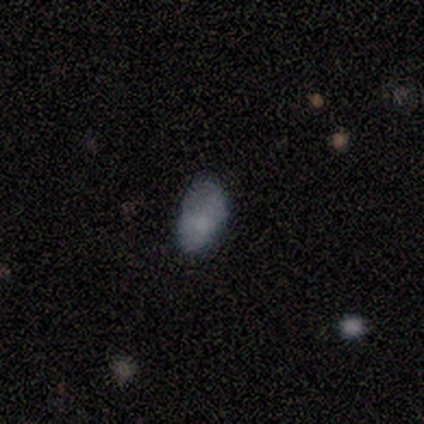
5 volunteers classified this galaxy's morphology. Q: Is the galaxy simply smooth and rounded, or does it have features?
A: smooth — 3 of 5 (60%).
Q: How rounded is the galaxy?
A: in between — 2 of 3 (67%).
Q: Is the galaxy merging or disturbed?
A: minor disturbance — 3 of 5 (60%).